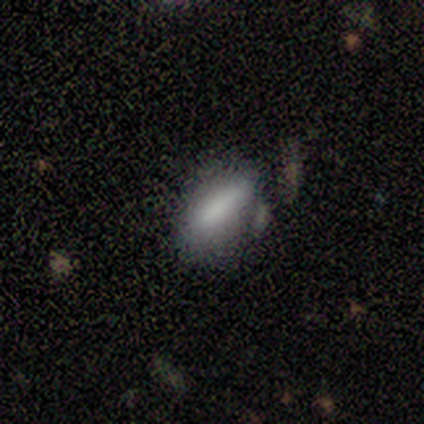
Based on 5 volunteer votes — Smooth or featured: smooth — 60% (featured or disk — 20%)
How rounded: in between — 100%
Merging: none — 100%